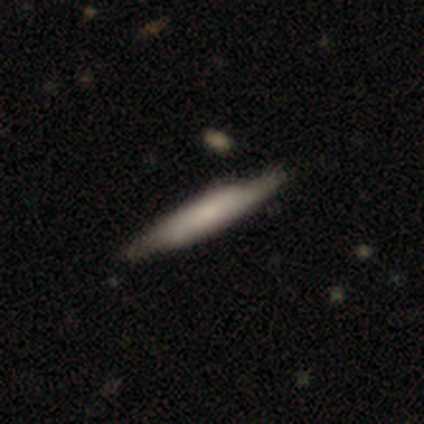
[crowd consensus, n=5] smooth-or-featured: featured or disk: 60% | smooth: 40% | star or artifact: 0%
  disk-edge-on: yes: 100% | no: 0%
    edge-on-bulge: boxy: 67% | none: 33% | rounded: 0%
  merging: none: 80% | minor disturbance: 20% | major disturbance: 0% | merger: 0%